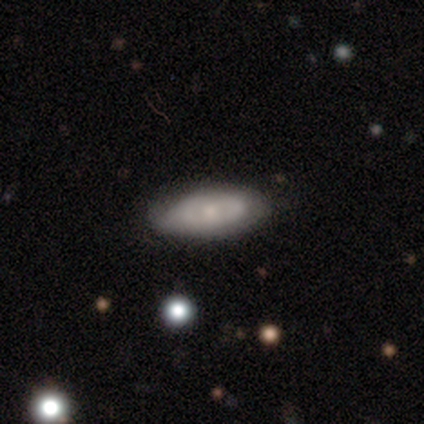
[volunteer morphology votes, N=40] Volunteers were most divided on "smooth or featured": smooth: 50%, featured or disk: 48%, star or artifact: 2%. Remaining: how rounded — in between (85%); merging — none (49%).